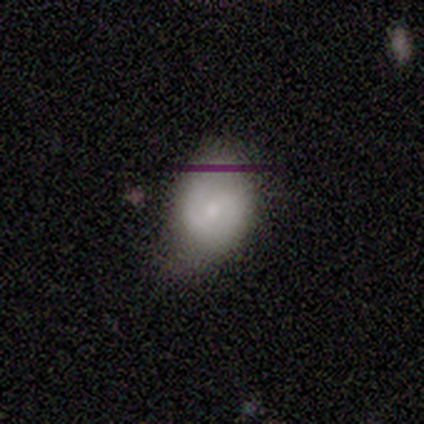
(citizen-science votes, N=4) Q: Smooth or featured?
A: smooth (50%); tied with: featured or disk (50%)
Q: How rounded?
A: in between (100%)
Q: Merging?
A: minor disturbance (75%); runner-up: none (25%)